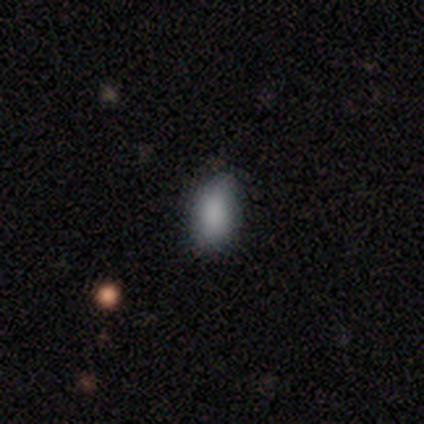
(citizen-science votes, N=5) smooth-or-featured: smooth: 100% | featured or disk: 0% | star or artifact: 0%
  how-rounded: in between: 100% | round: 0% | cigar-shaped: 0%
  merging: none: 80% | minor disturbance: 20% | major disturbance: 0% | merger: 0%